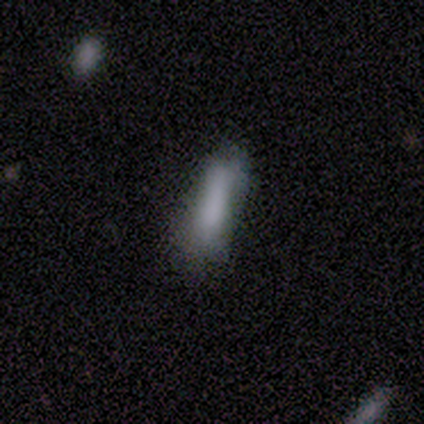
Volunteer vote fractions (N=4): Smooth or featured: smooth — 100%
How rounded: cigar-shaped — 75% (in between — 25%)
Merging: none — 50% (tied with minor disturbance — 50%)